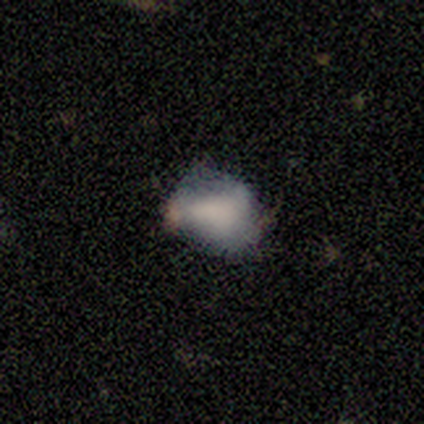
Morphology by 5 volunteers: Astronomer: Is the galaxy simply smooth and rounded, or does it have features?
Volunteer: featured or disk — 60% (runner-up: star or artifact, 40%).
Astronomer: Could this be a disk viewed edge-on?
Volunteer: no — 100%.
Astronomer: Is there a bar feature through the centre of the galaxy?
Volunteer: no — 100%.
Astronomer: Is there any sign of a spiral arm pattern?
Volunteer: no — 100%.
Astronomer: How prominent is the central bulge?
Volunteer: none — 67%.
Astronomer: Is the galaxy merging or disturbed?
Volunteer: none — 67%.